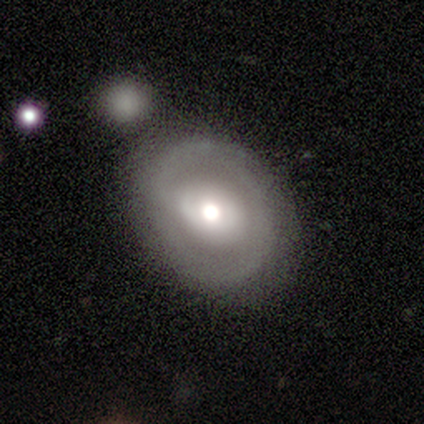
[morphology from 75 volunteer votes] smooth_or_featured: featured or disk (p=0.57) [alt: smooth p=0.39]
disk_edge_on: no (p=0.93) [alt: yes p=0.07]
bar: no (p=0.45) [alt: weak p=0.33]
has_spiral_arms: yes (p=0.60) [alt: no p=0.40]
spiral_winding: tight (p=0.62) [alt: medium p=0.21]
spiral_arm_count: 2 (p=0.58) [alt: can't tell p=0.25]
bulge_size: moderate (p=0.68) [alt: large p=0.23]
merging: none (p=0.64) [alt: minor disturbance p=0.14]